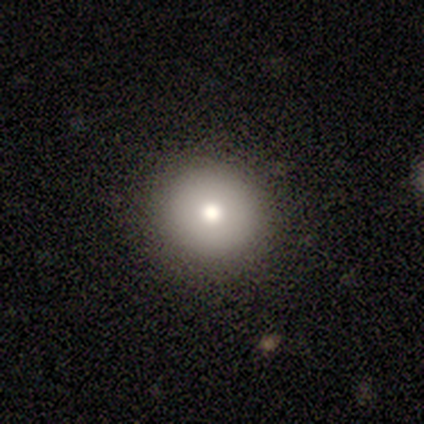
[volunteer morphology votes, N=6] smooth-or-featured: smooth: 50% | star or artifact: 33% | featured or disk: 17%
  how-rounded: round: 100% | in between: 0% | cigar-shaped: 0%
  merging: none: 100% | minor disturbance: 0% | major disturbance: 0% | merger: 0%